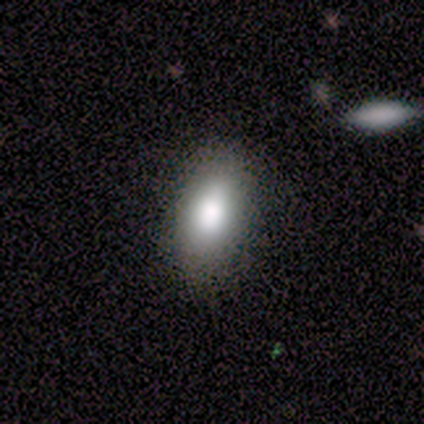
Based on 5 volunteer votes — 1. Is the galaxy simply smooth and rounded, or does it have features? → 80% smooth, 20% featured or disk, 0% star or artifact.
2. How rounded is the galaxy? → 100% in between, 0% round, 0% cigar-shaped.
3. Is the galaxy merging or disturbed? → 100% none, 0% minor disturbance, 0% major disturbance, 0% merger.